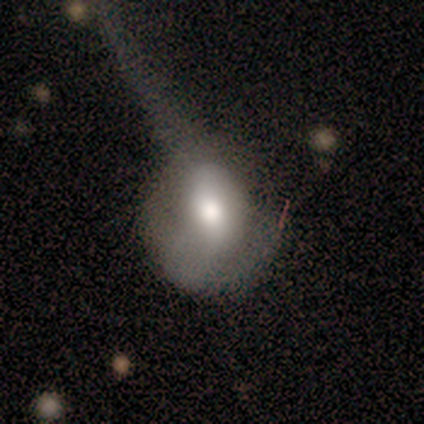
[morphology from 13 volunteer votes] smooth_or_featured: smooth (p=0.62) [alt: featured or disk p=0.31]
how_rounded: round (p=0.62) [alt: in between p=0.38]
merging: major disturbance (p=0.58) [alt: none p=0.25]